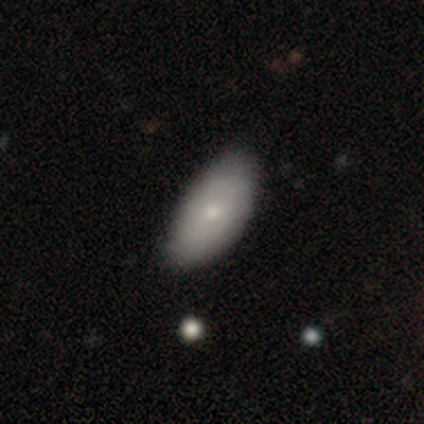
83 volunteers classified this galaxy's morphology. Smooth or featured? smooth (69%)
How rounded? in between (91%)
Merging? none (77%)